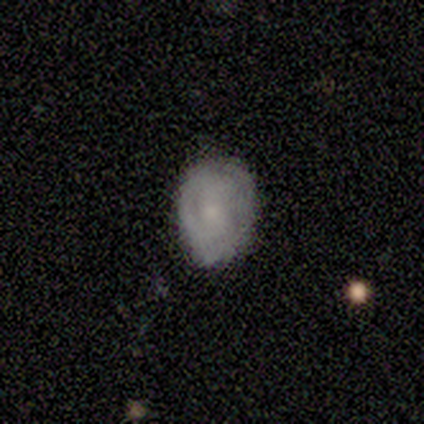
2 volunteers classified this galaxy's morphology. Smooth or featured? 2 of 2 (100%) said smooth. How rounded? 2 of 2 (100%) said round. Merging? 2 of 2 (100%) said none.